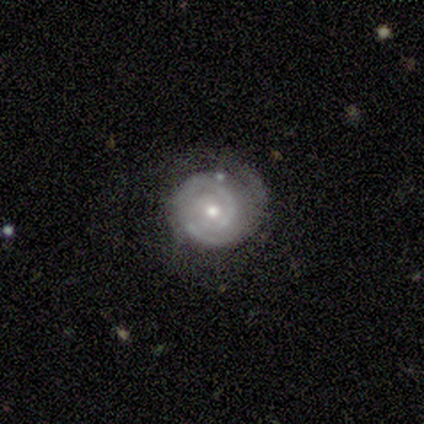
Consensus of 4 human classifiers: smooth-or-featured: featured or disk: 100% | smooth: 0% | star or artifact: 0%
  disk-edge-on: no: 100% | yes: 0%
    bar: no: 50% | strong: 25% | weak: 25%
    has-spiral-arms: yes: 75% | no: 25%
      spiral-winding: tight: 100% | medium: 0% | loose: 0%
      spiral-arm-count: 1: 33% (tied) | 2: 33% (tied) | can't tell: 33% (tied) | 3: 0% | 4: 0% | more than 4: 0%
    bulge-size: moderate: 75% | large: 25% | dominant: 0% | small: 0% | none: 0%
  merging: none: 75% | minor disturbance: 25% | major disturbance: 0% | merger: 0%